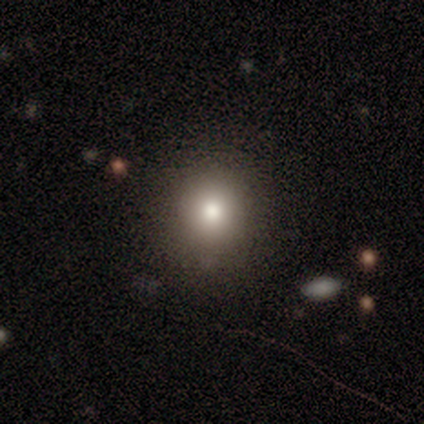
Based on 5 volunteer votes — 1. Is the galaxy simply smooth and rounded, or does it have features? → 80% smooth, 20% star or artifact, 0% featured or disk.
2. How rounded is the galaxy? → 100% round, 0% in between, 0% cigar-shaped.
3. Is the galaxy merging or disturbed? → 75% none, 25% minor disturbance, 0% major disturbance, 0% merger.